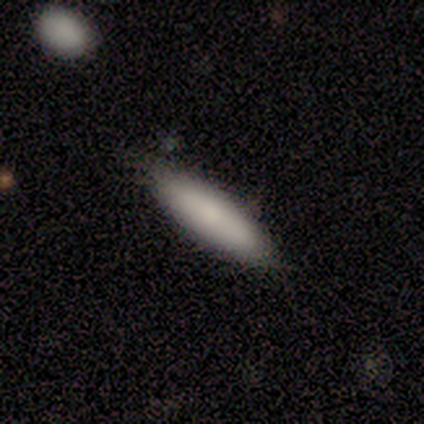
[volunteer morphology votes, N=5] This is likely a featured or disk galaxy (60%). It is likely viewed edge-on (67%). Edge-on bulge: possibly boxy (50%, tied with rounded). Merging: marginally none (40%, tied with minor disturbance).